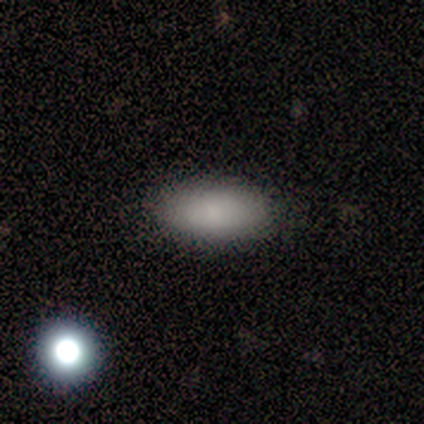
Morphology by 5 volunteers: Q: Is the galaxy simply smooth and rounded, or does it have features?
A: smooth — 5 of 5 (100%).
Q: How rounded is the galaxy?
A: in between — 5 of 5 (100%).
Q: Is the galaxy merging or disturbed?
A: none — 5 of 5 (100%).